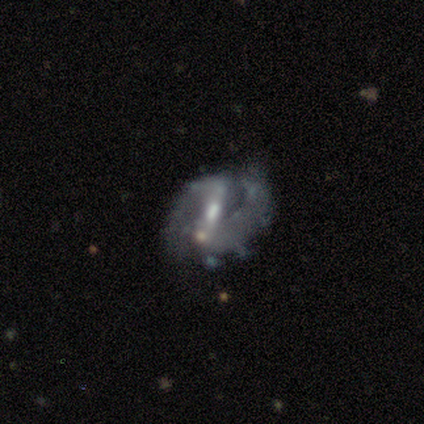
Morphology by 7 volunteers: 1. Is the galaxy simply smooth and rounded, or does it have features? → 86% featured or disk, 14% smooth, 0% star or artifact.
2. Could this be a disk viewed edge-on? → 100% no, 0% yes.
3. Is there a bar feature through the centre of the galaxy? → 67% weak, 33% strong, 0% no.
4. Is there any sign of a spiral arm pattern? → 83% yes, 17% no.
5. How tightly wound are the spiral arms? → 80% medium, 20% loose, 0% tight.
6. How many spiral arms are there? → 100% 2, 0% 1, 0% 3, 0% 4, 0% more than 4, 0% can't tell.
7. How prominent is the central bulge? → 50% moderate (tied), 50% small (tied), 0% dominant, 0% large, 0% none.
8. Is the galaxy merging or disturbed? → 57% none, 43% minor disturbance, 0% major disturbance, 0% merger.